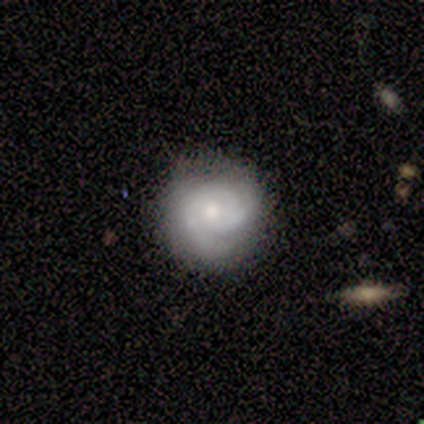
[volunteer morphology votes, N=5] Smooth or featured?
  - featured or disk: 80% *
  - star or artifact: 20%
  - smooth: 0%
Edge-on disk?
  - no: 100% *
  - yes: 0%
Bar?
  - no: 100% *
  - strong: 0%
  - weak: 0%
Spiral arms?
  - yes: 100% *
  - no: 0%
Spiral winding?
  - tight: 50% * (tied)
  - medium: 50% * (tied)
  - loose: 0%
Spiral arm count?
  - can't tell: 50% *
  - 2: 25%
  - 3: 25%
  - 1: 0%
  - 4: 0%
  - more than 4: 0%
Bulge size?
  - moderate: 75% *
  - small: 25%
  - dominant: 0%
  - large: 0%
  - none: 0%
Merging?
  - none: 50% * (tied)
  - minor disturbance: 50% * (tied)
  - major disturbance: 0%
  - merger: 0%